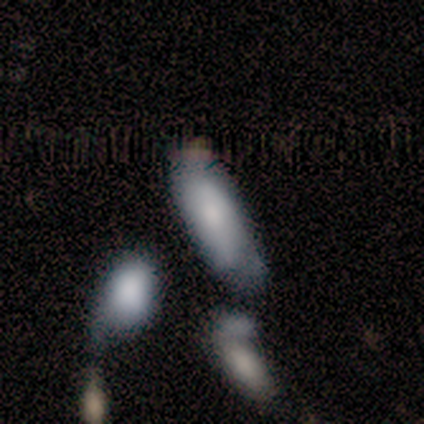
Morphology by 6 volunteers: This is possibly a featured or disk galaxy (50%). It is clearly not viewed edge-on (100%). Bar: clearly no (100%). Spiral arm pattern: likely yes (67%). Spiral arm count: clearly can't tell (100%). Spiral winding: possibly tight (50%, tied with medium). Central bulge: marginally large (33%, tied with moderate and small). Merging: likely none (60%).